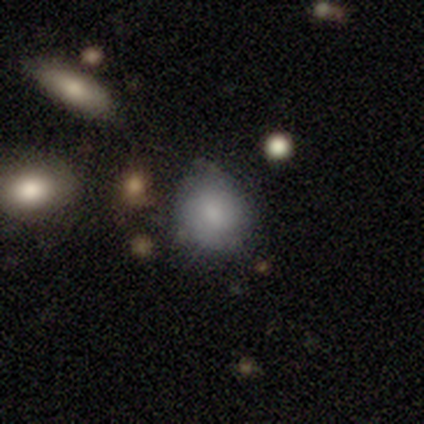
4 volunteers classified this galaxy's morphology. Q: Smooth or featured?
A: smooth (75%); runner-up: star or artifact (25%)
Q: How rounded?
A: round (67%); runner-up: in between (33%)
Q: Merging?
A: none (100%)